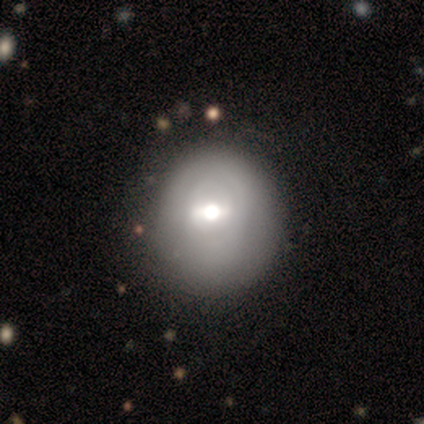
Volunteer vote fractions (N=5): smooth-or-featured: featured or disk: 80% | smooth: 20% | star or artifact: 0%
  disk-edge-on: no: 100% | yes: 0%
    bar: strong: 50% | weak: 25% | no: 25%
    has-spiral-arms: no: 75% | yes: 25%
    bulge-size: large: 50% (tied) | moderate: 50% (tied) | dominant: 0% | small: 0% | none: 0%
  merging: none: 60% | minor disturbance: 20% | major disturbance: 20% | merger: 0%